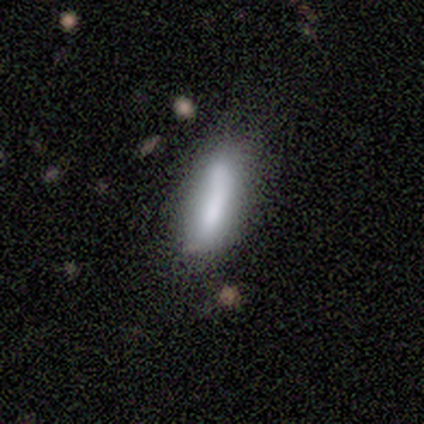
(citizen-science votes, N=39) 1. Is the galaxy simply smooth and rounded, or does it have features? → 79% smooth, 15% featured or disk, 5% star or artifact.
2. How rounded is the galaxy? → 58% cigar-shaped, 39% in between, 3% round.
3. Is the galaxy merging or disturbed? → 49% none, 35% minor disturbance, 11% merger, 5% major disturbance.